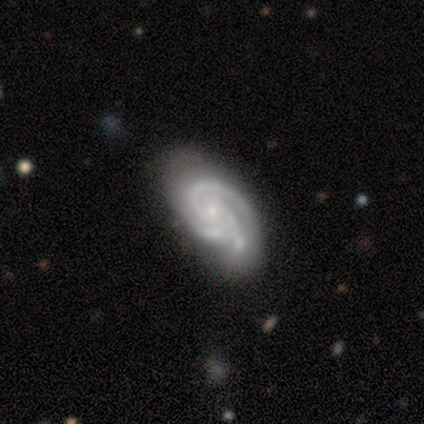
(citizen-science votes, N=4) A featured or disk galaxy (100%) with no bar (50%), 3 (100%) medium (75%) spiral arms (100%) and a small central bulge (75%).

Vote fractions:
- Smooth or featured? featured or disk: 100% / smooth: 0% / star or artifact: 0%
- Edge-on disk? no: 100% / yes: 0%
- Bar? no: 50% / strong: 25% / weak: 25%
- Spiral arms? yes: 100% / no: 0%
- Spiral winding? medium: 75% / tight: 25% / loose: 0%
- Spiral arm count? 3: 100% / 1: 0% / 2: 0% / 4: 0% / more than 4: 0% / can't tell: 0%
- Bulge size? small: 75% / moderate: 25% / dominant: 0% / large: 0% / none: 0%
- Merging? none: 75% / minor disturbance: 25% / major disturbance: 0% / merger: 0%